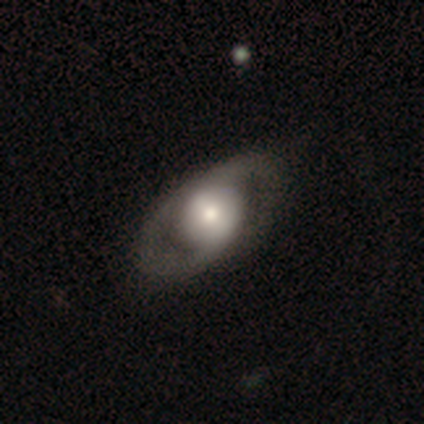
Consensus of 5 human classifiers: featured or disk 100%, smooth 0%, star or artifact 0%. Down the decision tree: edge-on disk — no (100%); bar — weak (60%); spiral arms — yes (80%); spiral arm count — 2 (50%); spiral winding — medium (50%); bulge size — large (60%); merging — none (80%).